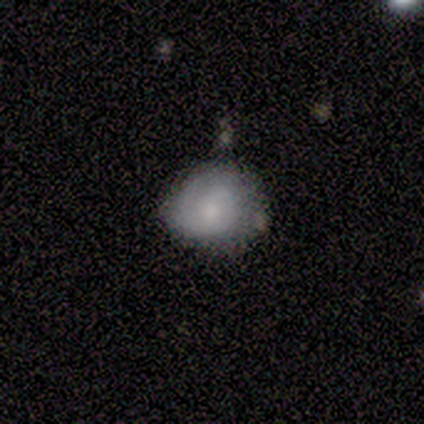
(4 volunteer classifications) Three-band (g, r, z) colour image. It shows a smooth galaxy with no disk features (50%, tied with featured or disk) that is round (100%). Merging: none (75%).